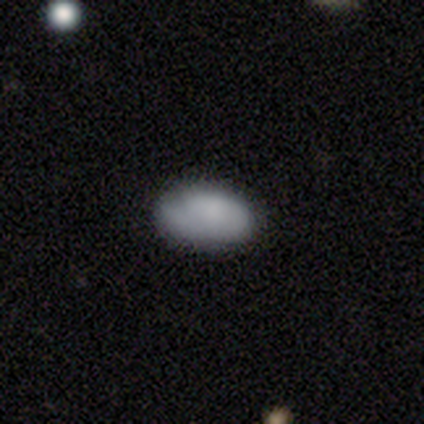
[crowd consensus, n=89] Q: Smooth or featured?
A: smooth (79%); runner-up: featured or disk (18%)
Q: How rounded?
A: in between (97%); runner-up: round (1%)
Q: Merging?
A: none (71%); runner-up: minor disturbance (23%)